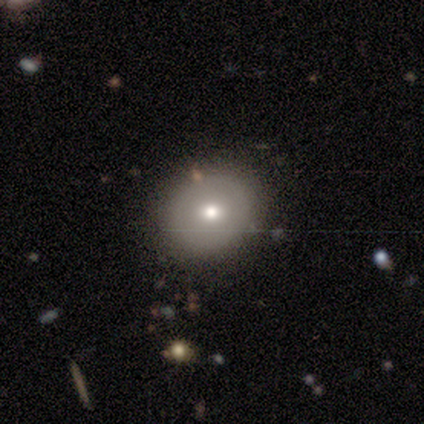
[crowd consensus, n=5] featured or disk 60%, smooth 40%, star or artifact 0%. Down the decision tree: edge-on disk — no (100%); bar — no (100%); spiral arms — no (100%); bulge size — moderate (67%); merging — none (80%).